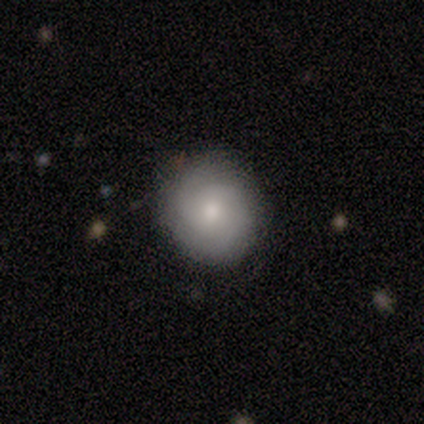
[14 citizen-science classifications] Smooth or featured? smooth (57%)
How rounded? round (100%)
Merging? none (85%)